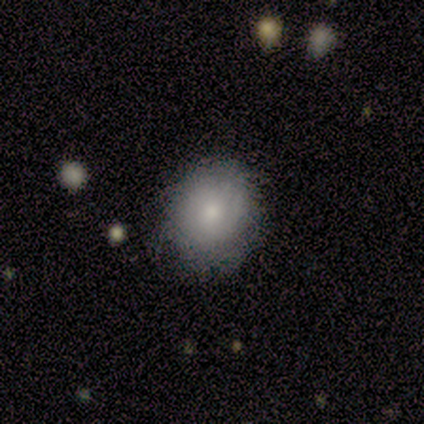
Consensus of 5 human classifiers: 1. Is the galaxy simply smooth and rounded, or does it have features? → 80% smooth, 20% featured or disk, 0% star or artifact.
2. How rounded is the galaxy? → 50% round (tied), 50% in between (tied), 0% cigar-shaped.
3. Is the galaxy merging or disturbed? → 60% minor disturbance, 40% none, 0% major disturbance, 0% merger.